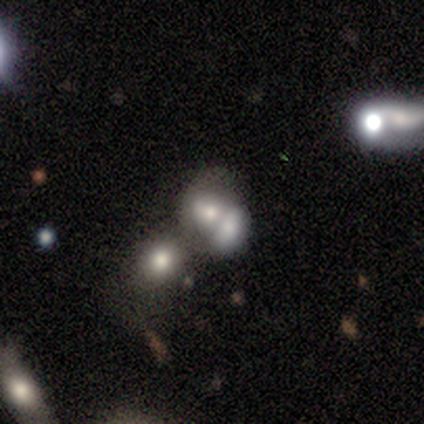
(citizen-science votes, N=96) Morphology: type=smooth (50%); roundness=in between (62%); merging=merger (72%).